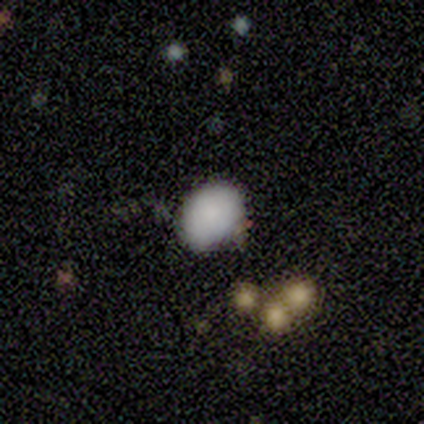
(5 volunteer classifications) Smooth or featured: smooth — 100%
How rounded: round — 60% (in between — 40%)
Merging: minor disturbance — 60% (none — 40%)